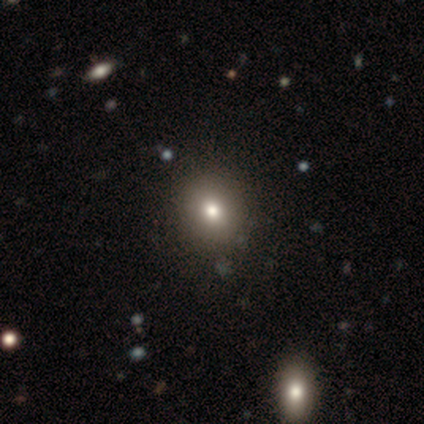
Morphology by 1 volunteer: smooth 100%, featured or disk 0%, star or artifact 0%. Down the decision tree: how rounded — round (100%); merging — none (100%).